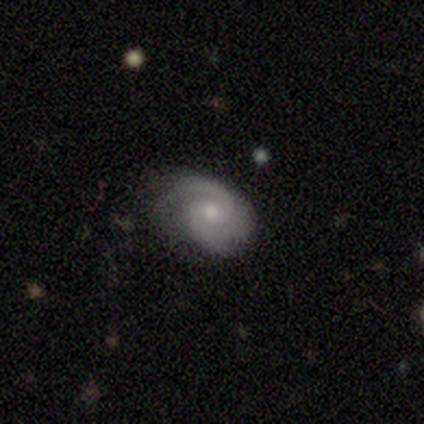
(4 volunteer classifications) Volunteers were most divided on "spiral winding" (2-way tie): tight: 50%, medium: 50%, loose: 0%; "bulge size" (2-way tie): moderate: 50%, small: 50%, dominant: 0%, large: 0%, none: 0%. More confident: smooth or featured — featured or disk (100%); edge-on disk — no (100%); spiral arms — yes (100%); bar — no (75%); merging — none (75%); spiral arm count — can't tell (50%).